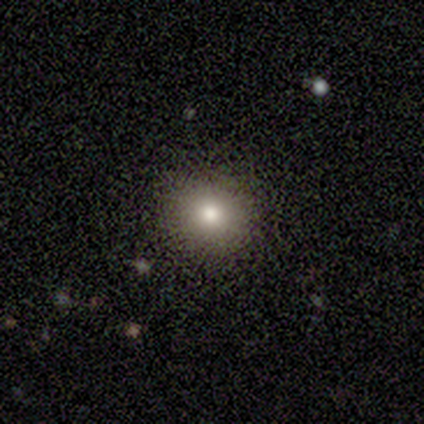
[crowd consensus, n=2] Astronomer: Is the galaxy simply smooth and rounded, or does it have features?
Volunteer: smooth — 50%, tied with star or artifact at 50%.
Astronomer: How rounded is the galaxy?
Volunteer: round — 100%.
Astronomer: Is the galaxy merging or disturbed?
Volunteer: none — 100%.